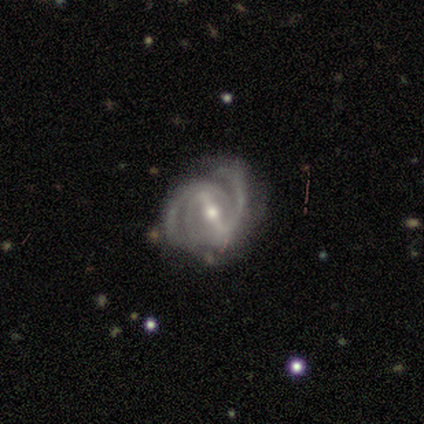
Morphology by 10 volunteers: This is clearly a featured or disk galaxy (100%). It is clearly not viewed edge-on (100%). Bar: likely strong (60%). Spiral arm pattern: clearly yes (100%). Spiral arm count: possibly 2 (50%). Spiral winding: possibly tight (50%, tied with medium). Central bulge: likely moderate (60%). Merging: likely none (60%).